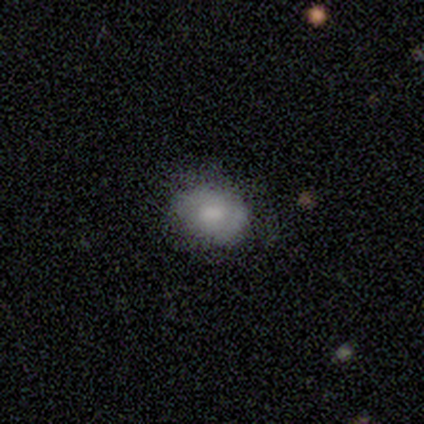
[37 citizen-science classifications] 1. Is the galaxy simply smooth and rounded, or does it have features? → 54% smooth, 38% featured or disk, 8% star or artifact.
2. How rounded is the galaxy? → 60% in between, 40% round, 0% cigar-shaped.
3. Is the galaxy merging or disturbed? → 74% none, 15% minor disturbance, 9% major disturbance, 3% merger.